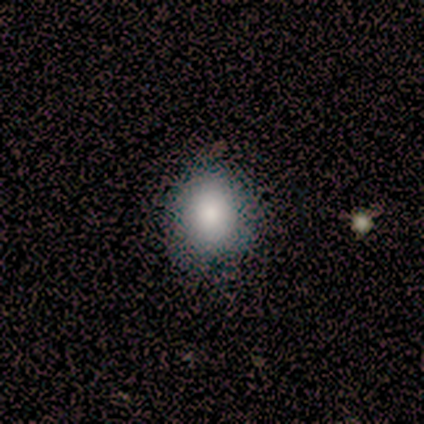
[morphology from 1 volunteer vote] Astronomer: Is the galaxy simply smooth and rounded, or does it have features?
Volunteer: smooth — 100%.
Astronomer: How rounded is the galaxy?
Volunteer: in between — 100%.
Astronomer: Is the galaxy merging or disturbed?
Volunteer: none — 100%.